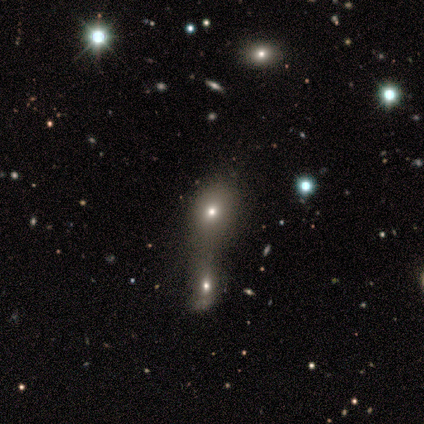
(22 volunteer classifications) Overall: smooth (68%). How rounded: in between (53%; round 40%). Merging: merger (74%).